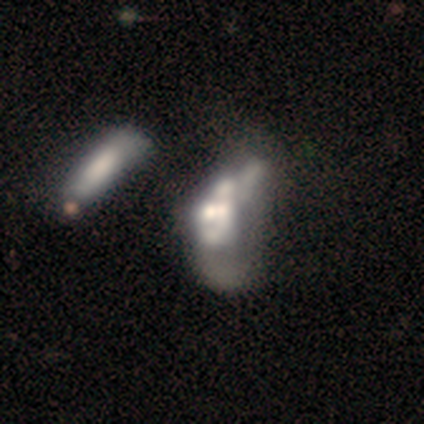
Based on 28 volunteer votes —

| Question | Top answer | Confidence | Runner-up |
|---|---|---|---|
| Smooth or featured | featured or disk | 64% | star or artifact (21%) |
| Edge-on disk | no | 94% | yes (6%) |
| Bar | no | 82% | strong (12%) |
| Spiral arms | no | 94% | yes (6%) |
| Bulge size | moderate | 29% | tied: none (29%) |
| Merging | merger | 55% | major disturbance (36%) |